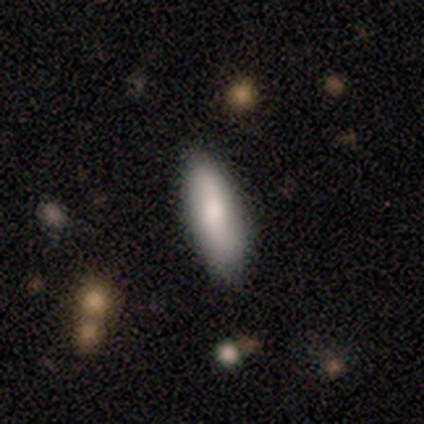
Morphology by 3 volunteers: type=smooth (100%); roundness=in between (67%); merging=none (67%).